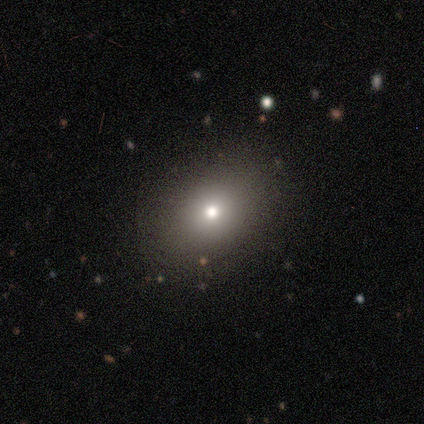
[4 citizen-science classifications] A smooth galaxy with no disk features (75%) that is in between round and cigar-shaped (67%). Merging: none (75%).